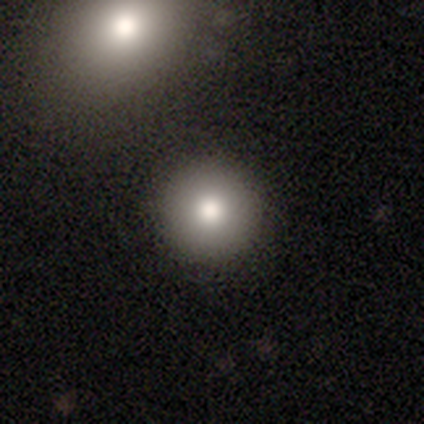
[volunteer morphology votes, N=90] smooth_or_featured: smooth (p=0.78) [alt: featured or disk p=0.11]
how_rounded: round (p=0.96) [alt: in between p=0.04]
merging: none (p=0.93) [alt: merger p=0.04]